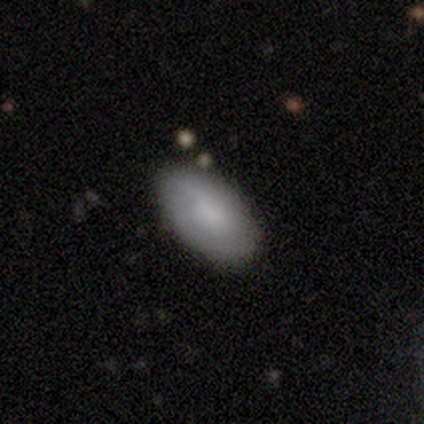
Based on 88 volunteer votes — Smooth or featured? 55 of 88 (62%) said smooth. How rounded? 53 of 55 (96%) said in between. Merging? 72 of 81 (89%) said none.